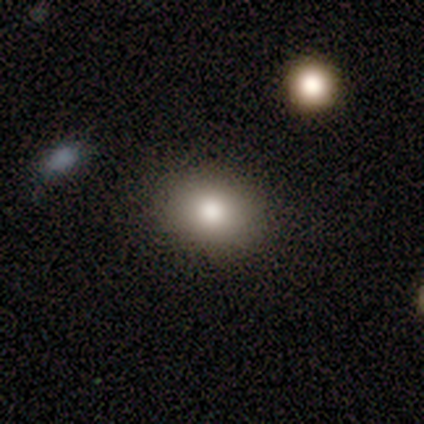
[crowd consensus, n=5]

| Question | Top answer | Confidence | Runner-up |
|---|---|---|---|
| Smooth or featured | smooth | 100% | — |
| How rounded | in between | 60% | round (40%) |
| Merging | none | 100% | — |